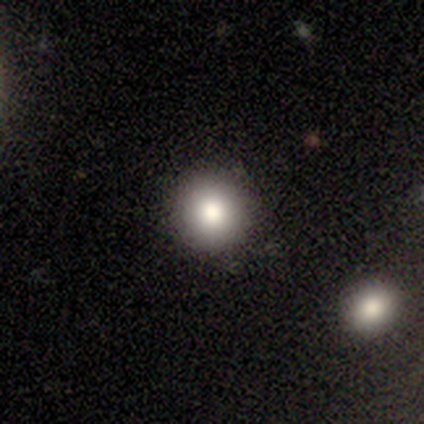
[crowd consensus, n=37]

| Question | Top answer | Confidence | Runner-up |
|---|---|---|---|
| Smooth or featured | smooth | 81% | star or artifact (11%) |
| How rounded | round | 97% | in between (3%) |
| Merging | none | 97% | minor disturbance (3%) |